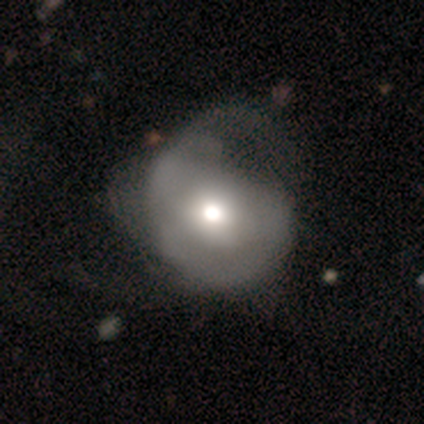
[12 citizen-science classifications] This is possibly a smooth galaxy (50%). How rounded: clearly round (83%). Merging: possibly major disturbance (45%).